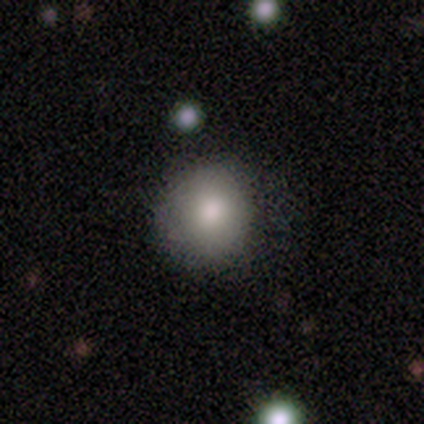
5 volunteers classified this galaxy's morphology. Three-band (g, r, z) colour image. It shows a smooth galaxy with no disk features (80%) that is round (75%). Merging: none (50%).